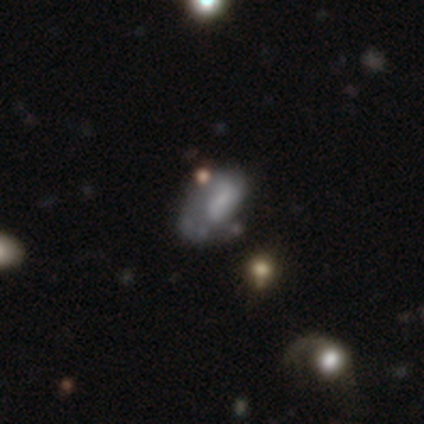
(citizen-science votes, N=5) This appears to be a featured or disk galaxy (60%) with a weak bar (67%), 2 (67%) tight (33%, tied with medium and loose) spiral arms (100%) and a small central bulge (67%). Merging: major disturbance (50%).